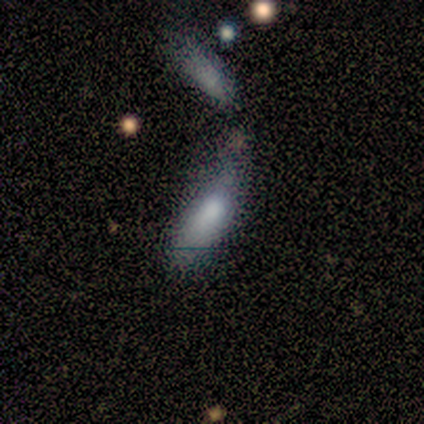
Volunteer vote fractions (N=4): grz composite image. It shows a smooth galaxy with no disk features (100%) that is in between round and cigar-shaped (50%, tied with cigar-shaped). Merging: none (50%, tied with merger).